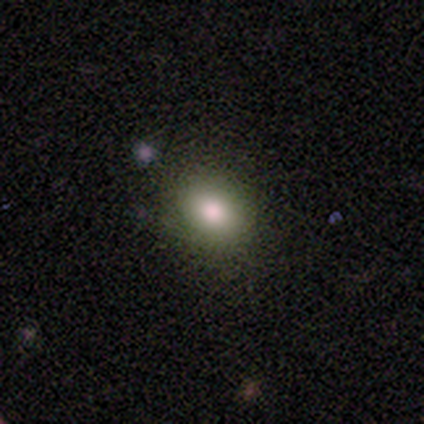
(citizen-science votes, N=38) Morphology: type=smooth (63%); roundness=round (50%, tied with in between); merging=none (86%).